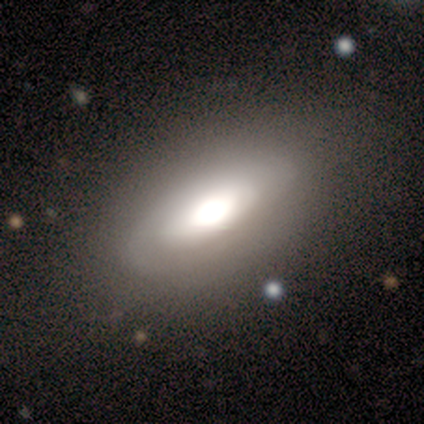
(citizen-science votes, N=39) smooth-or-featured: smooth: 56% | featured or disk: 44% | star or artifact: 0%
  how-rounded: in between: 73% | round: 14% | cigar-shaped: 14%
  merging: none: 77% | minor disturbance: 18% | major disturbance: 5% | merger: 0%